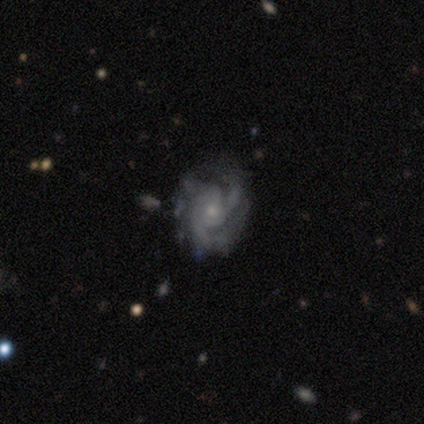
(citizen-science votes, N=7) Smooth or featured: featured or disk — 100%
Edge-on disk: no — 100%
Bar: no — 86% (weak — 14%)
Spiral arms: yes — 100%
Spiral winding: tight — 43% (tied with medium — 43%)
Spiral arm count: 3 — 57% (can't tell — 29%)
Bulge size: small — 71% (moderate — 29%)
Merging: none — 71% (minor disturbance — 14%)